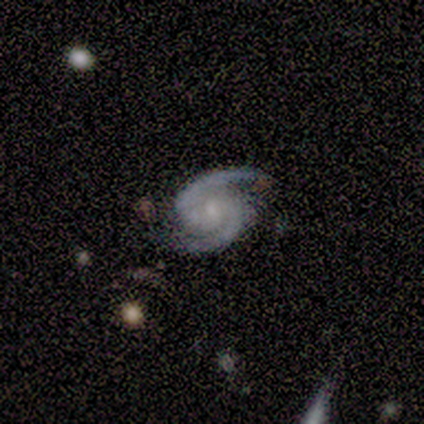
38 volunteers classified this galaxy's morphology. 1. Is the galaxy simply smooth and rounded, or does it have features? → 95% featured or disk, 5% smooth, 0% star or artifact.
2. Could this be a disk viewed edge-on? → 97% no, 3% yes.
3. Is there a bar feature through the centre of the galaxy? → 57% no, 34% weak, 9% strong.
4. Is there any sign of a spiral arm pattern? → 100% yes, 0% no.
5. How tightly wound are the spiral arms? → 66% medium, 31% tight, 3% loose.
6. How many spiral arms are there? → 100% 2, 0% 1, 0% 3, 0% 4, 0% more than 4, 0% can't tell.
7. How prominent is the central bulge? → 49% small, 29% moderate, 23% none, 0% dominant, 0% large.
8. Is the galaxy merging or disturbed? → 74% none, 21% minor disturbance, 3% major disturbance, 3% merger.